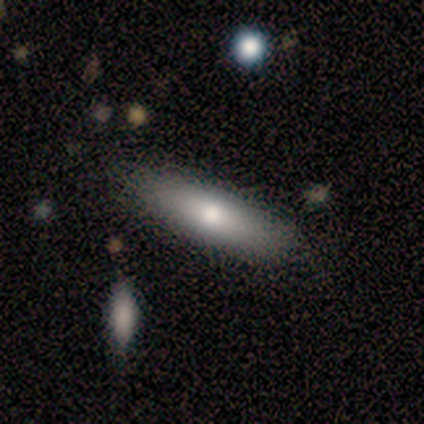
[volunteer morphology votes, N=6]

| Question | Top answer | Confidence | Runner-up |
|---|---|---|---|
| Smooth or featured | smooth | 100% | — |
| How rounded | in between | 83% | cigar-shaped (17%) |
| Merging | none | 83% | merger (17%) |